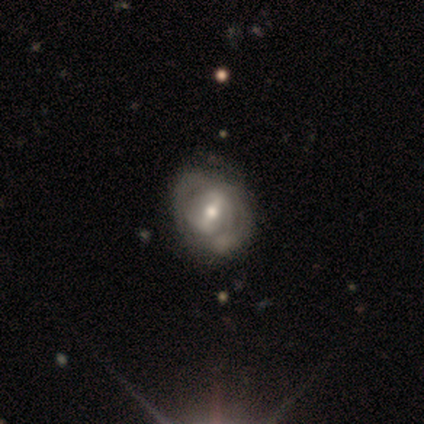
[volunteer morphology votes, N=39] type=featured or disk (85%); edge-on=no (100%); bar=weak (52%); spiral arms=yes (79%); winding=tight (50%); arm count=2 (38%, tied with can't tell); bulge=moderate (55%); merging=none (51%).